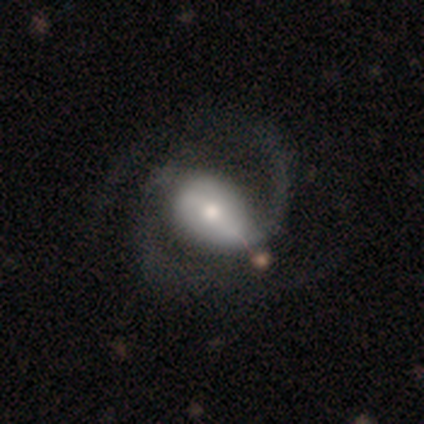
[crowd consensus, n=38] Q: Smooth or featured?
A: featured or disk (87%); runner-up: smooth (11%)
Q: Edge-on disk?
A: no (94%); runner-up: yes (6%)
Q: Bar?
A: strong (52%); runner-up: no (32%)
Q: Spiral arms?
A: yes (90%); runner-up: no (10%)
Q: Spiral winding?
A: loose (57%); runner-up: medium (36%)
Q: Spiral arm count?
A: 2 (86%); runner-up: 1 (7%)
Q: Bulge size?
A: moderate (52%); runner-up: large (23%)
Q: Merging?
A: none (49%); runner-up: merger (14%)